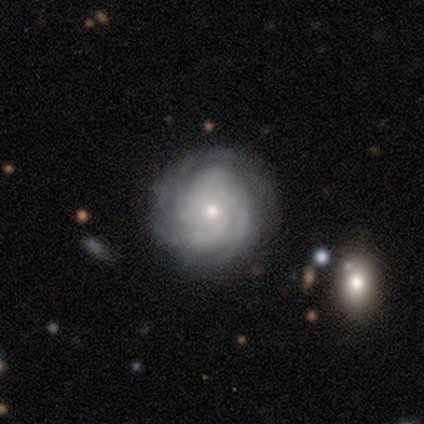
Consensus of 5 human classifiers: Smooth or featured? 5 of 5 (100%) said featured or disk. Edge-on disk? 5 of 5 (100%) said no. Bar? 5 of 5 (100%) said no. Spiral arms? 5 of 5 (100%) said yes. Spiral winding? 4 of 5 (80%) said tight. Spiral arm count? 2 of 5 (40%, tied with 4) said 3. Bulge size? 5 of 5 (100%) said small. Merging? 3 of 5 (60%) said none.